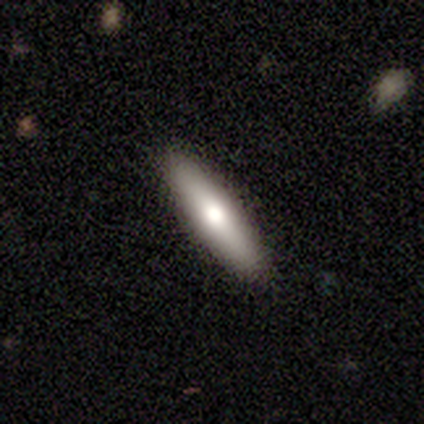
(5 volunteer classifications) smooth 60%, featured or disk 40%, star or artifact 0%. Down the decision tree: how rounded — cigar-shaped (100%); merging — none (80%).